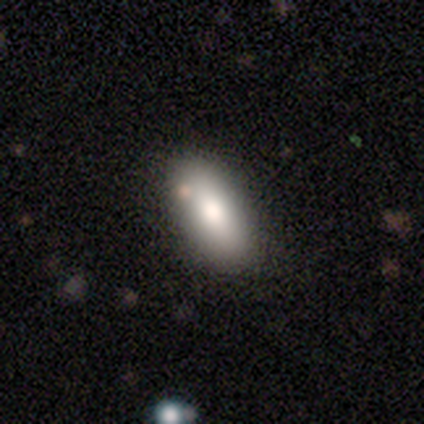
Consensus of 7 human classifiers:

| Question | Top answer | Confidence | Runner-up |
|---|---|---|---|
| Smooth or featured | smooth | 86% | featured or disk (14%) |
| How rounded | in between | 83% | cigar-shaped (17%) |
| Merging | none | 100% | — |